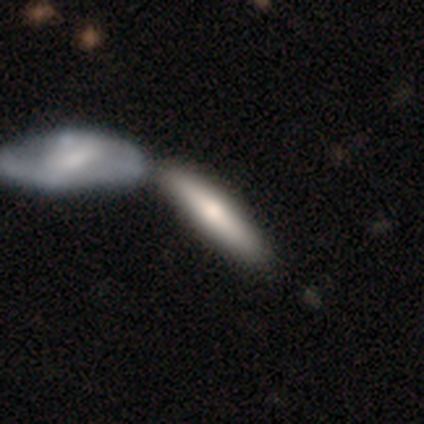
Morphology: type=smooth (40%, tied with featured or disk); roundness=cigar-shaped (100%); merging=none (50%, tied with merger).